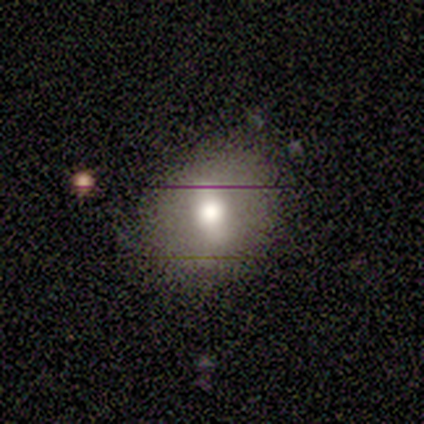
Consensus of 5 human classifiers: This appears to be a smooth galaxy with no disk features (80%) that is round (50%, tied with in between). Merging: none (80%).